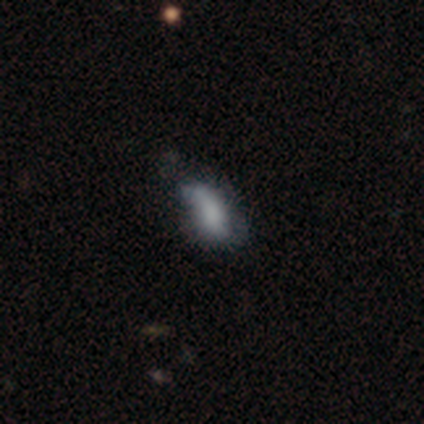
Q: Smooth or featured?
A: featured or disk (80%); runner-up: smooth (20%)
Q: Edge-on disk?
A: no (100%)
Q: Bar?
A: no (75%); runner-up: weak (25%)
Q: Spiral arms?
A: yes (50%); tied with: no (50%)
Q: Spiral winding?
A: loose (100%)
Q: Spiral arm count?
A: 2 (50%); tied with: 3 (50%)
Q: Bulge size?
A: none (75%); runner-up: small (25%)
Q: Merging?
A: none (40%); tied with: minor disturbance (40%)